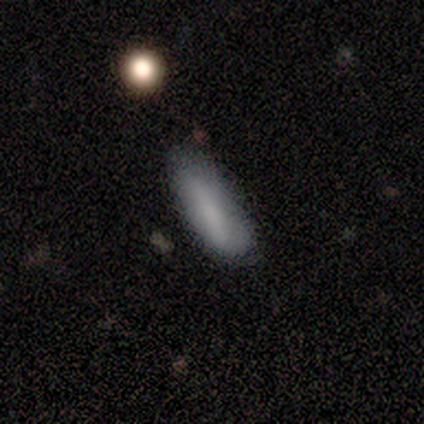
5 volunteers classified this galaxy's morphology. smooth 100%, featured or disk 0%, star or artifact 0%. Down the decision tree: how rounded — in between (80%); merging — none (60%).